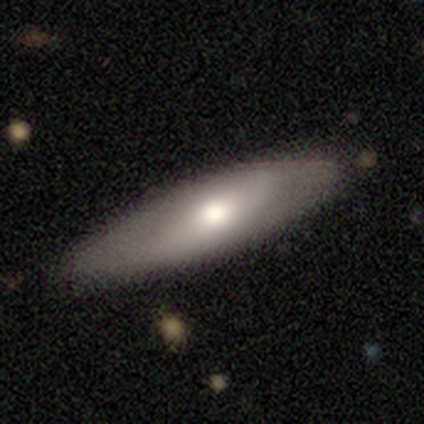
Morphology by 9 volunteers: smooth_or_featured: smooth (p=0.67) [alt: featured or disk p=0.33]
how_rounded: cigar-shaped (p=0.67) [alt: in between p=0.33]
merging: none (p=0.67) [alt: minor disturbance p=0.33]